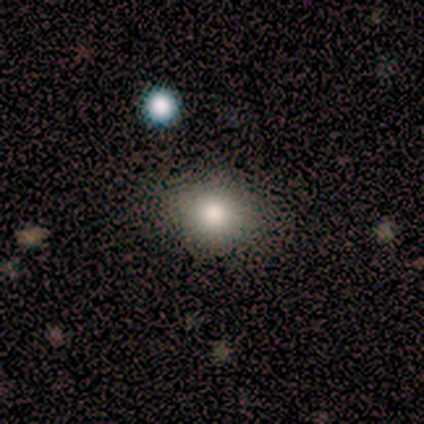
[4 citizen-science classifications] A smooth galaxy with no disk features (75%) that is round (67%).

Vote fractions:
- Smooth or featured? smooth: 75% / star or artifact: 25% / featured or disk: 0%
- How rounded? round: 67% / in between: 33% / cigar-shaped: 0%
- Merging? none: 100% / minor disturbance: 0% / major disturbance: 0% / merger: 0%